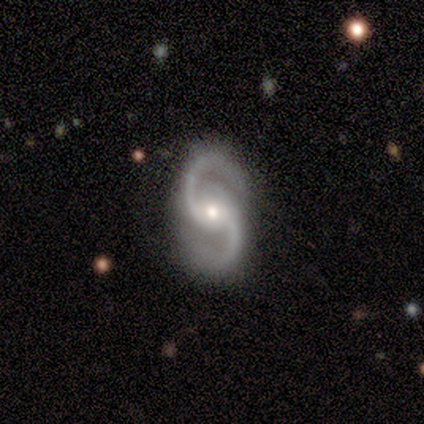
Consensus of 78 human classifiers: smooth_or_featured: featured or disk (p=0.96) [alt: smooth p=0.03]
disk_edge_on: no (p=0.97) [alt: yes p=0.03]
bar: no (p=0.52) [alt: weak p=0.30]
has_spiral_arms: yes (p=0.99) [alt: no p=0.01]
spiral_winding: medium (p=0.56) [alt: loose p=0.40]
spiral_arm_count: 2 (p=1.00)
bulge_size: moderate (p=0.48) [alt: small p=0.40]
merging: none (p=0.48) [alt: minor disturbance p=0.03]